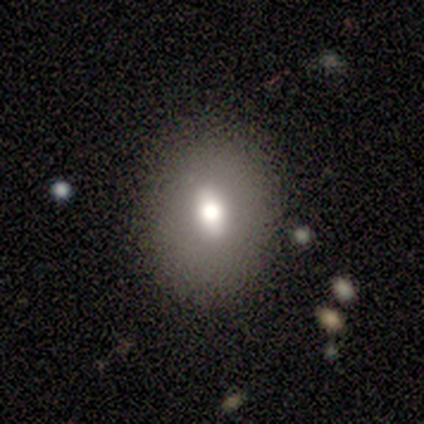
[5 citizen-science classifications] smooth-or-featured: smooth: 100% | featured or disk: 0% | star or artifact: 0%
  how-rounded: in between: 60% | round: 40% | cigar-shaped: 0%
  merging: none: 60% | minor disturbance: 40% | major disturbance: 0% | merger: 0%